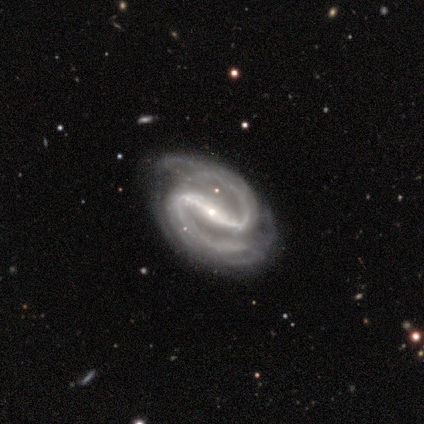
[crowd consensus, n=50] A featured or disk galaxy (98%) with a strong bar (87%), 2 (93%) medium (73%) spiral arms (96%) and a small central bulge (68%). Merging: none (76%).